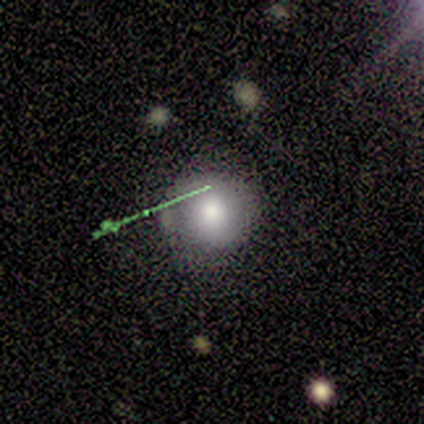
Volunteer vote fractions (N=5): Smooth or featured?
  - smooth: 100% *
  - featured or disk: 0%
  - star or artifact: 0%
How rounded?
  - round: 100% *
  - in between: 0%
  - cigar-shaped: 0%
Merging?
  - none: 80% *
  - minor disturbance: 20%
  - major disturbance: 0%
  - merger: 0%